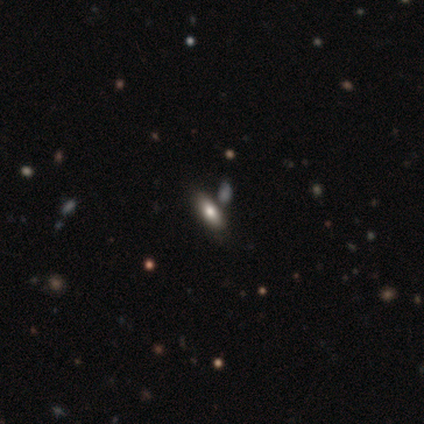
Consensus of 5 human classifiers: Morphology: type=smooth (80%); roundness=in between (100%); merging=none (80%).